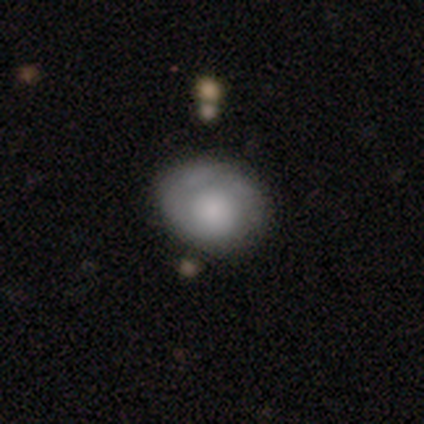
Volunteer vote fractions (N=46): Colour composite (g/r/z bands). It shows a smooth galaxy with no disk features (59%) that is round (63%). Merging: none (64%).